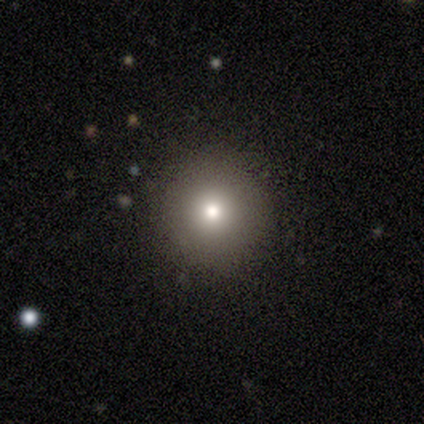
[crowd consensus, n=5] This appears to be a smooth galaxy with no disk features (80%) that is round (100%). Merging: none (100%).